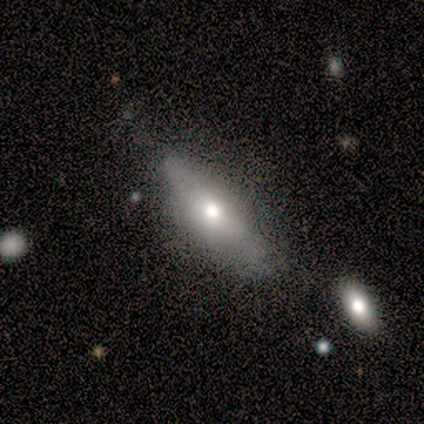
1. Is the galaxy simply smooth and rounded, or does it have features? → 83% smooth, 17% featured or disk, 0% star or artifact.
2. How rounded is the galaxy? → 60% in between, 40% cigar-shaped, 0% round.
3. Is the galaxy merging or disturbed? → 67% none, 17% minor disturbance, 17% major disturbance, 0% merger.